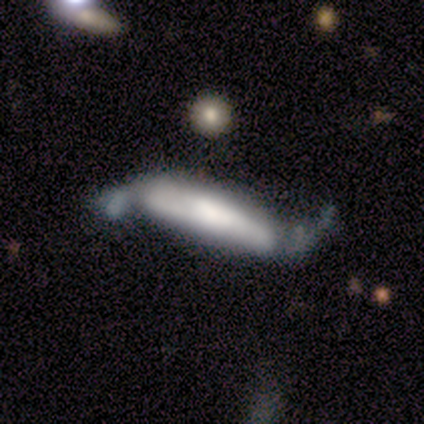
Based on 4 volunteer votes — This is likely a smooth galaxy (75%). How rounded: likely cigar-shaped (67%). Merging: likely major disturbance (75%).